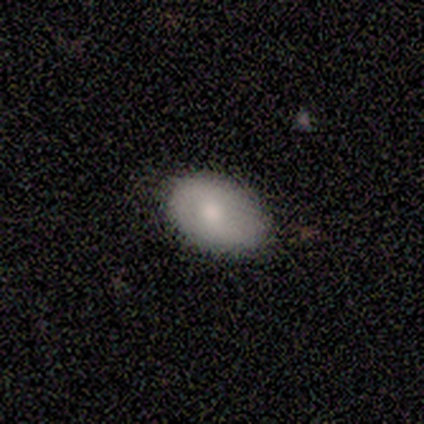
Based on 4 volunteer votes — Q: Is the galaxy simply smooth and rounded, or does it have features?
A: smooth — 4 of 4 (100%).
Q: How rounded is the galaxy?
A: in between — 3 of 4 (75%).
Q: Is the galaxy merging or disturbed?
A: none — 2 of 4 (50%).